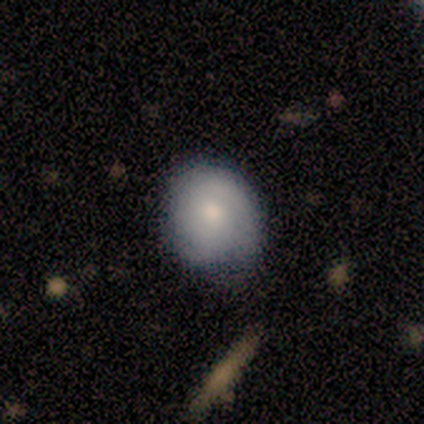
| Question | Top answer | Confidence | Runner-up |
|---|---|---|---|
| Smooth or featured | smooth | 100% | — |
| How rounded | round | 100% | — |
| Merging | none | 100% | — |